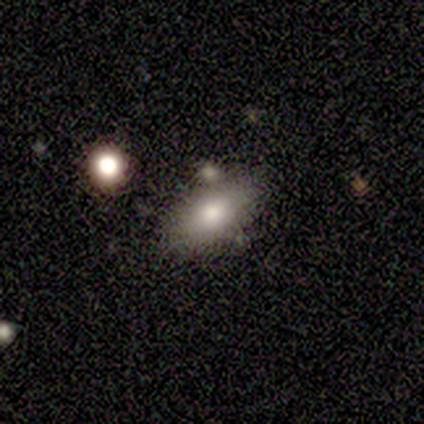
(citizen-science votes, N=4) smooth_or_featured: smooth (p=1.00)
how_rounded: in between (p=0.75) [alt: cigar-shaped p=0.25]
merging: none (p=0.75) [alt: merger p=0.25]